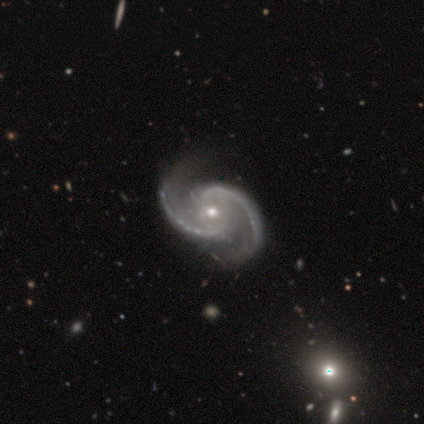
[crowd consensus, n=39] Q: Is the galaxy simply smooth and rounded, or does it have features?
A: featured or disk — 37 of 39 (95%).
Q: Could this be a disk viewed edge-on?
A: no — 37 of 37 (100%).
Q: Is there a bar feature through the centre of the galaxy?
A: no — 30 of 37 (81%).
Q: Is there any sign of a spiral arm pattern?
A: yes — 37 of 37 (100%).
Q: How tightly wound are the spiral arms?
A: medium — 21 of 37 (57%).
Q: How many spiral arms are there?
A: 2 — 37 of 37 (100%).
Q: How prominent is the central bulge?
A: moderate — 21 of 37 (57%).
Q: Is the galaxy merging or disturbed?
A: none — 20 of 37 (54%).